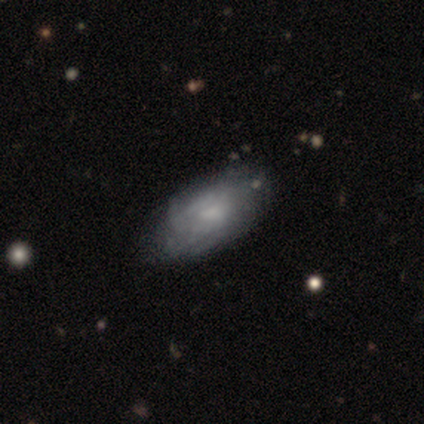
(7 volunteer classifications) featured or disk 57%, smooth 43%, star or artifact 0%. Down the decision tree: edge-on disk — no (75%); bar — no (100%); spiral arms — yes (67%); spiral arm count — can't tell (100%); spiral winding — tight (100%); bulge size — small (67%); merging — none (71%).